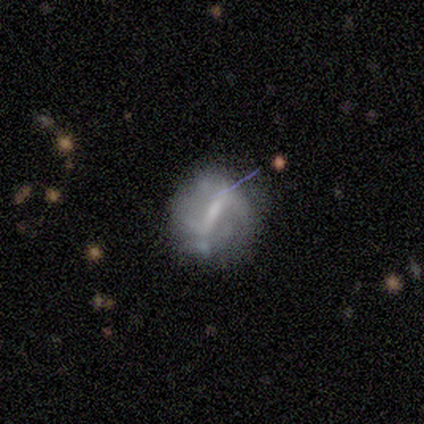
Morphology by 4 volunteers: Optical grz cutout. It shows a smooth galaxy with no disk features (50%, tied with featured or disk) that is in between round and cigar-shaped (100%). Merging: none (50%, tied with minor disturbance).